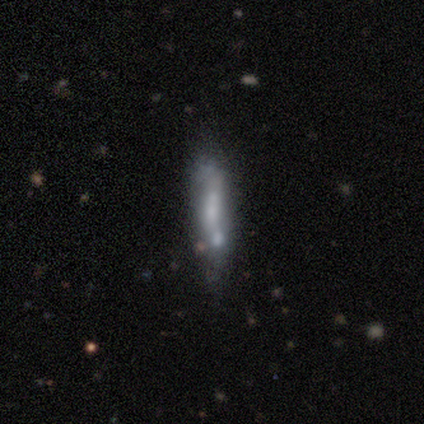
This appears to be a featured or disk galaxy (60%) with no bar (100%), no spiral arms (100%) and a small central bulge (50%, tied with none). Merging: none (100%).